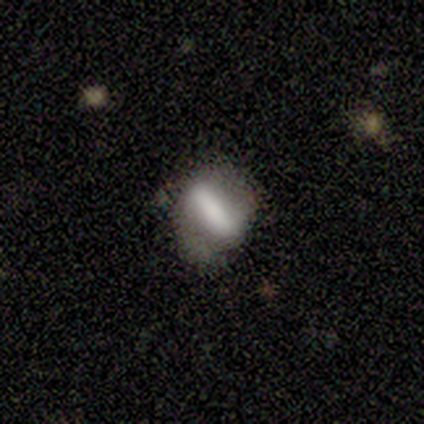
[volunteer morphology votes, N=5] Smooth or featured: smooth — 60% (featured or disk — 40%)
How rounded: cigar-shaped — 67% (round — 33%)
Merging: none — 40% (tied with minor disturbance — 40%)